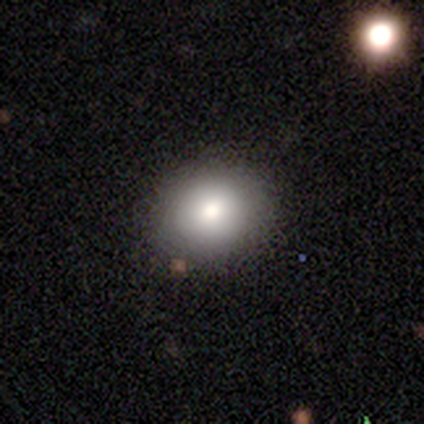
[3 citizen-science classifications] smooth-or-featured: smooth: 67% | star or artifact: 33% | featured or disk: 0%
  how-rounded: in between: 100% | round: 0% | cigar-shaped: 0%
  merging: none: 100% | minor disturbance: 0% | major disturbance: 0% | merger: 0%